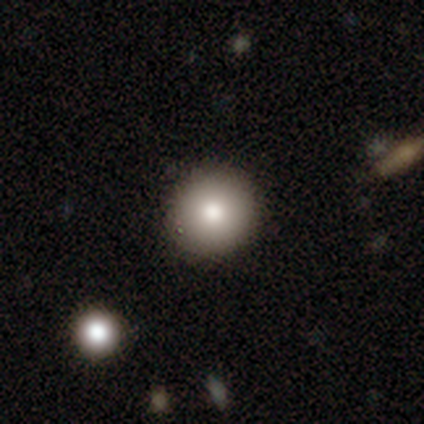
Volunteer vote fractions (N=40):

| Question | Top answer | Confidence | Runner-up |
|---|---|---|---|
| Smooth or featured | smooth | 82% | featured or disk (10%) |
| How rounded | round | 94% | in between (3%) |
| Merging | none | 86% | minor disturbance (14%) |